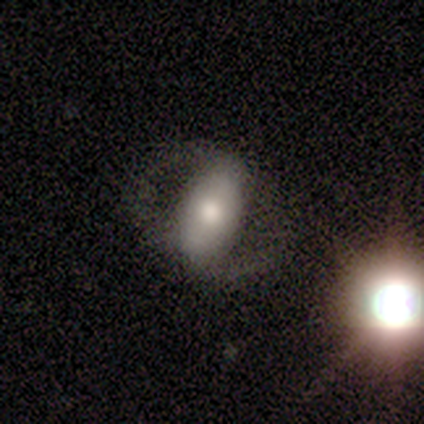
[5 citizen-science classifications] Overall: smooth (60%; featured or disk 40%). How rounded: in between (100%). Merging: none (80%).